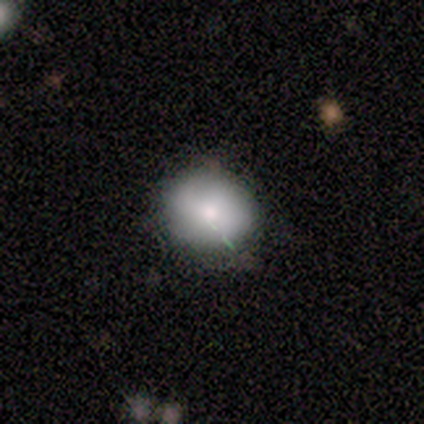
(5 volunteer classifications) Smooth or featured: smooth — 80% (star or artifact — 20%)
How rounded: round — 75% (in between — 25%)
Merging: none — 75% (minor disturbance — 25%)